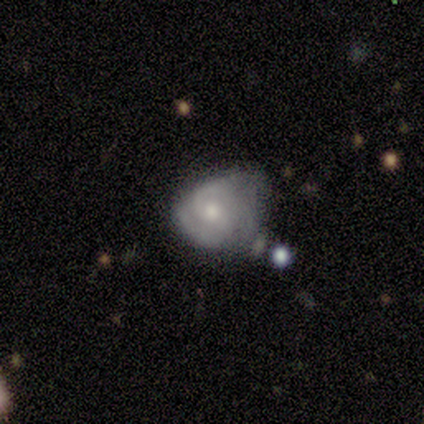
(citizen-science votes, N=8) Q: Smooth or featured?
A: featured or disk (75%); runner-up: smooth (25%)
Q: Edge-on disk?
A: no (100%)
Q: Bar?
A: no (83%); runner-up: weak (17%)
Q: Spiral arms?
A: yes (100%)
Q: Spiral winding?
A: tight (50%); tied with: medium (50%)
Q: Spiral arm count?
A: 2 (50%); runner-up: 3 (33%)
Q: Bulge size?
A: moderate (67%); runner-up: small (33%)
Q: Merging?
A: minor disturbance (62%); runner-up: none (25%)